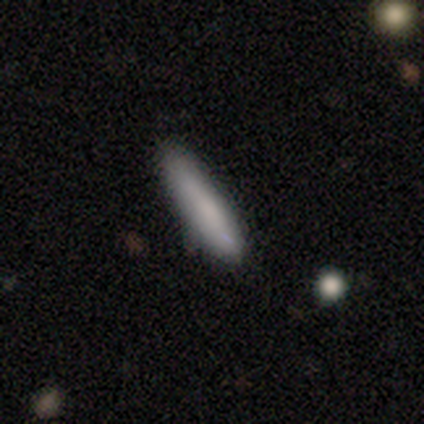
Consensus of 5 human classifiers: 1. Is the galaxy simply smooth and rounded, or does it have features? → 100% smooth, 0% featured or disk, 0% star or artifact.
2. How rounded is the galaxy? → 60% cigar-shaped, 40% in between, 0% round.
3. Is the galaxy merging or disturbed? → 80% none, 20% minor disturbance, 0% major disturbance, 0% merger.